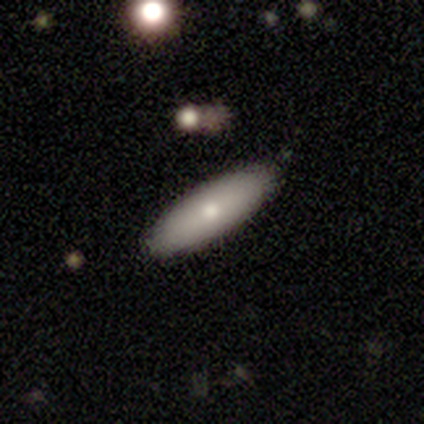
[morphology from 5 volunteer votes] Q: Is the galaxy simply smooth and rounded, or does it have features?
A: smooth — 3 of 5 (60%).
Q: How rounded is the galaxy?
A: in between — 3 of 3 (100%).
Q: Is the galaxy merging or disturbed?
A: none — 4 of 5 (80%).